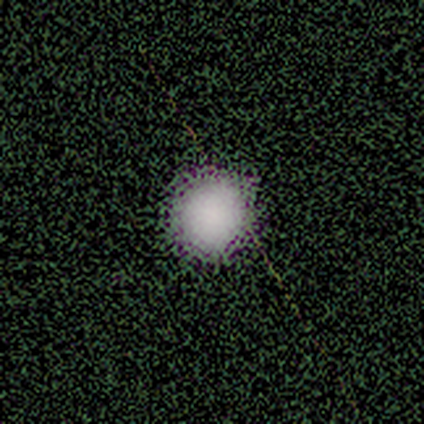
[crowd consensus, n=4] Smooth or featured? smooth (75%)
How rounded? round (100%)
Merging? none (100%)